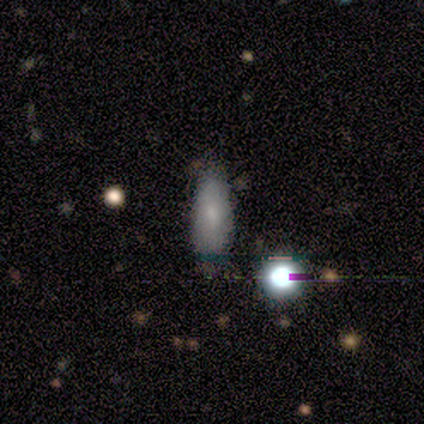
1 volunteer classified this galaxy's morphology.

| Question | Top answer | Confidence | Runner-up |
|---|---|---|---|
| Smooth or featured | smooth | 100% | — |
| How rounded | in between | 100% | — |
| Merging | none | 100% | — |